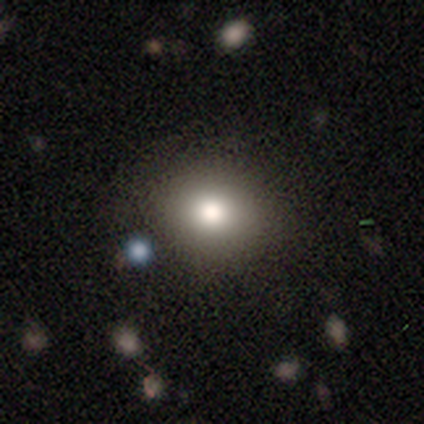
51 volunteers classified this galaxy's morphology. Volunteers were most divided on "how rounded": round: 77%, in between: 21%, cigar-shaped: 2%. More confident: merging — none (91%); smooth or featured — smooth (84%).